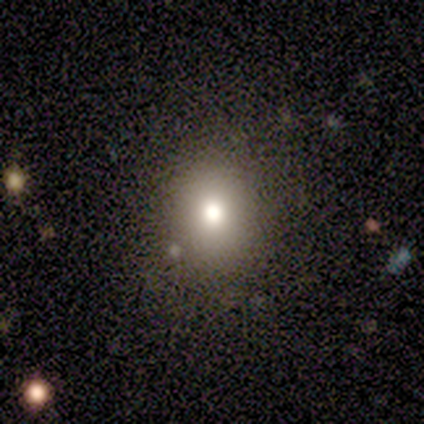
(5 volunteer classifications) Morphology: type=smooth (100%); roundness=round (80%); merging=none (100%).